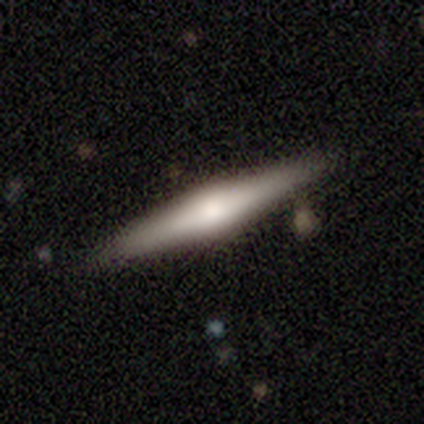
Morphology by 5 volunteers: smooth 40% (tied), featured or disk 40% (tied), star or artifact 20%. Down the decision tree: how rounded — cigar-shaped (100%); merging — none (100%).